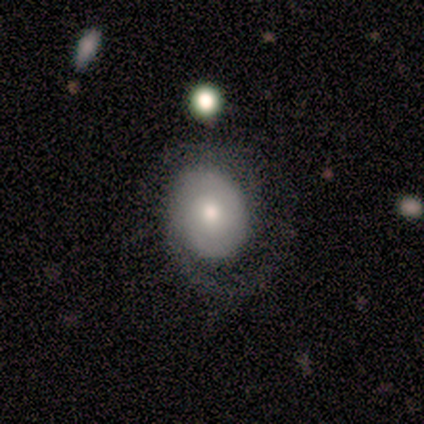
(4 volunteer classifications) smooth 50% (tied), featured or disk 50% (tied), star or artifact 0%. Down the decision tree: how rounded — round (50%, tied with in between); merging — none (50%).